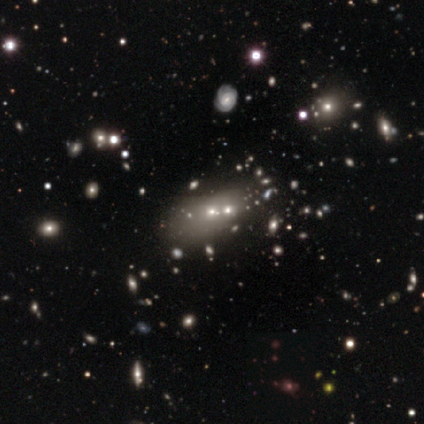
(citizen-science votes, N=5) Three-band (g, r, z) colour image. It shows a featured or disk galaxy (40%, tied with star or artifact) with no bar (100%), no spiral arms (100%) and a moderate central bulge (100%). Merging: none (67%).